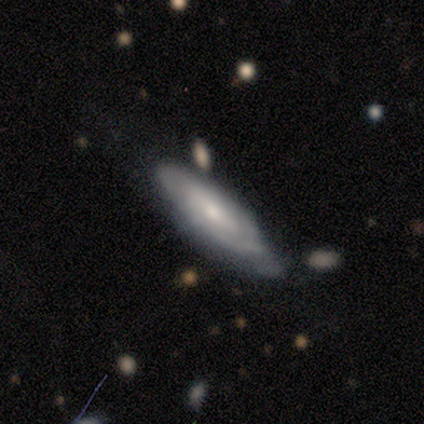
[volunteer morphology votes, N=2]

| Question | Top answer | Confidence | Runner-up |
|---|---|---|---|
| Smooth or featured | smooth | 100% | — |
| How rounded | in between | 100% | — |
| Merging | none | 100% | — |